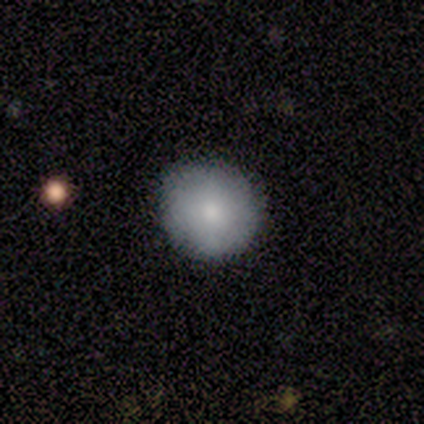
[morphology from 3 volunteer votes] Smooth or featured: smooth — 67% (star or artifact — 33%)
How rounded: round — 100%
Merging: none — 100%